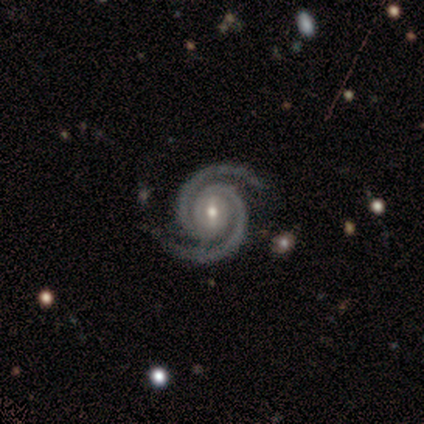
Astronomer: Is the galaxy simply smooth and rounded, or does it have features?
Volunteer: featured or disk — 80%.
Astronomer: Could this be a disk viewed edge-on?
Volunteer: no — 100%.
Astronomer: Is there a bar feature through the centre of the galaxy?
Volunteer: weak — 50%, tied with no at 50%.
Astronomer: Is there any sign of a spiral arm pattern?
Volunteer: yes — 100%.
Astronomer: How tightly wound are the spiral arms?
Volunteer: medium — 100%.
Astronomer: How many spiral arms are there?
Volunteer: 2 — 100%.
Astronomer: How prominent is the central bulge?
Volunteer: moderate — 50%, tied with small at 50%.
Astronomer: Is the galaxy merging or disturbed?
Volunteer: none — 60%.